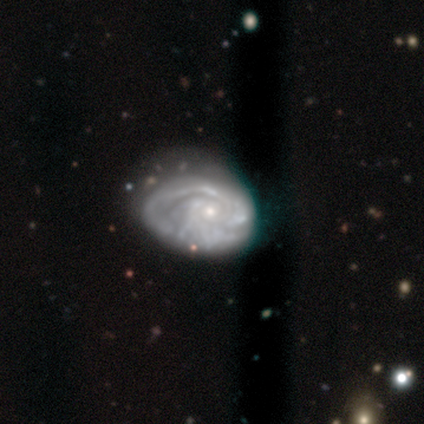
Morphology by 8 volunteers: featured or disk 100%, smooth 0%, star or artifact 0%. Down the decision tree: edge-on disk — no (100%); bar — no (88%); spiral arms — yes (88%); spiral arm count — 2 (71%); spiral winding — tight (71%); bulge size — small (100%); merging — minor disturbance (38%, tied with major disturbance).